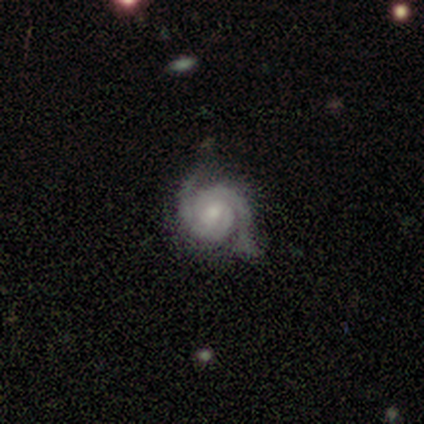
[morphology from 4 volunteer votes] Overall: featured or disk (100%). Edge-on disk: no (100%). Bar: no (75%). Spiral arms: yes (100%). Spiral arm count: 2 (100%). Spiral winding: tight (75%). Bulge size: moderate (100%). Merging: none (75%).